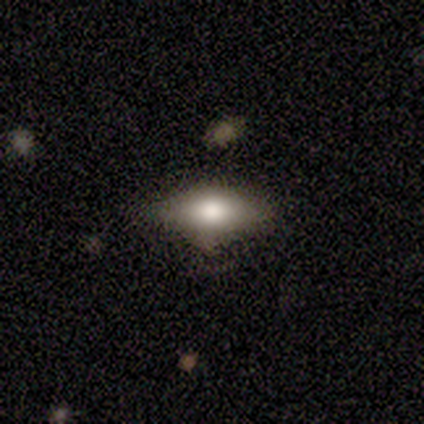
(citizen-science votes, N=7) Smooth or featured? smooth (57%)
How rounded? in between (75%)
Merging? none (43%, tied with major disturbance)